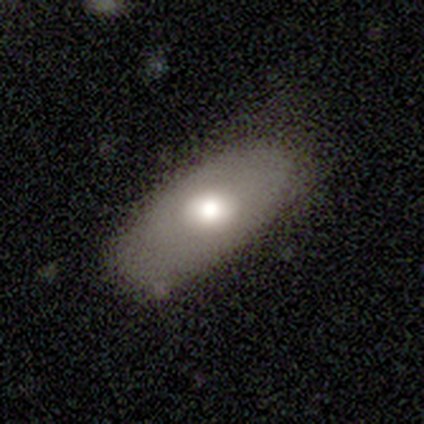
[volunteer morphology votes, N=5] Smooth or featured? 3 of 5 (60%) said smooth. How rounded? 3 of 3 (100%) said in between. Merging? 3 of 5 (60%) said minor disturbance.